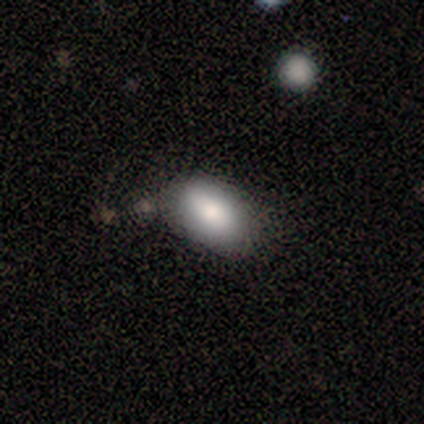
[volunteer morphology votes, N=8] This appears to be a smooth galaxy with no disk features (100%) that is in between round and cigar-shaped (100%). Merging: none (88%).